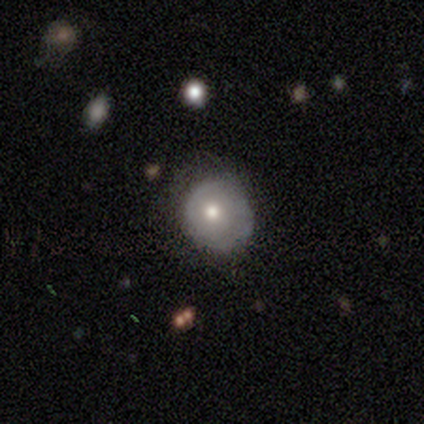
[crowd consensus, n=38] Smooth or featured? smooth (55%)
How rounded? round (81%)
Merging? none (63%)